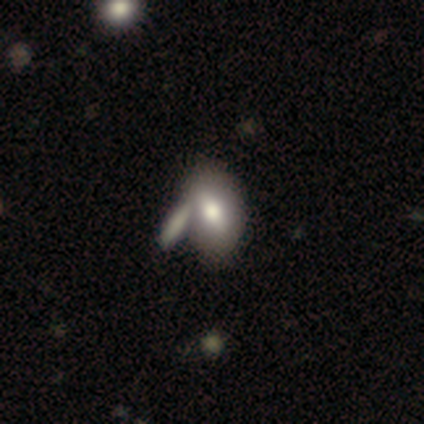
This appears to be a smooth galaxy with no disk features (60%) that is in between round and cigar-shaped (67%). Merging: none (100%).